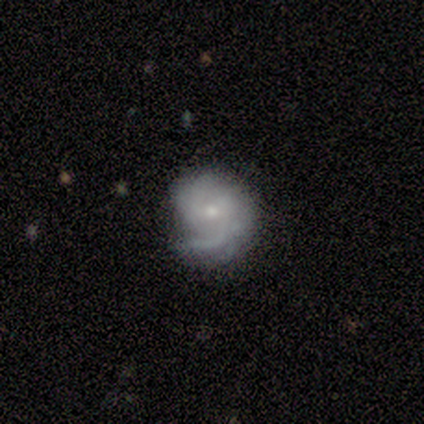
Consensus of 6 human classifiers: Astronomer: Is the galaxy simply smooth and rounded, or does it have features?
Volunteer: featured or disk — 83%.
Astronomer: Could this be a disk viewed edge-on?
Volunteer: no — 100%.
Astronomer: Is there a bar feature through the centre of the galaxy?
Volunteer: no — 60% (runner-up: weak, 40%).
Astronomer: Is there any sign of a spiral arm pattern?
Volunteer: yes — 80%.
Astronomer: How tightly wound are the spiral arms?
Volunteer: tight — 50%, tied with medium at 50%.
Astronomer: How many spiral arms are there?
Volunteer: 1 — 50%, tied with 2 at 50%.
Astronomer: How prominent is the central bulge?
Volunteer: small — 100%.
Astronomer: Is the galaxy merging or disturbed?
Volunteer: none — 50%, tied with minor disturbance at 50%.